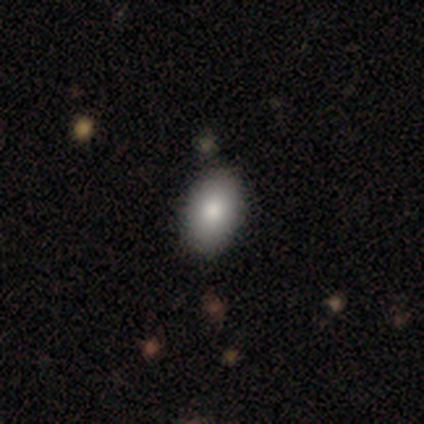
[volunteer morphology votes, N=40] Smooth or featured? 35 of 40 (88%) said smooth. How rounded? 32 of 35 (91%) said in between. Merging? 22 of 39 (56%) said none.